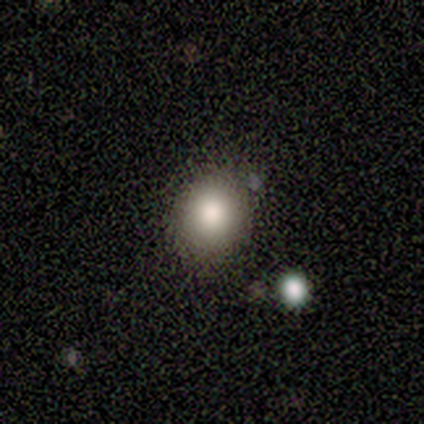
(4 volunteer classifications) Smooth or featured?
  - smooth: 75% *
  - star or artifact: 25%
  - featured or disk: 0%
How rounded?
  - round: 67% *
  - in between: 33%
  - cigar-shaped: 0%
Merging?
  - none: 67% *
  - minor disturbance: 33%
  - major disturbance: 0%
  - merger: 0%